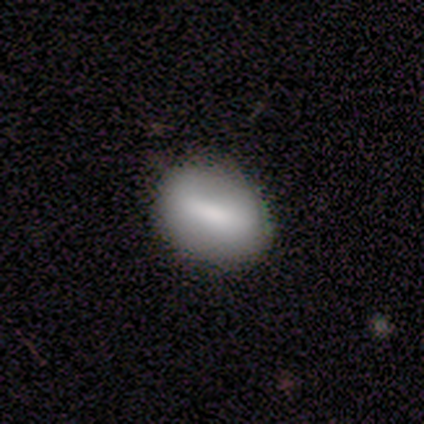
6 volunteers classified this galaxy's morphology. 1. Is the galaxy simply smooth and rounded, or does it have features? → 83% smooth, 17% featured or disk, 0% star or artifact.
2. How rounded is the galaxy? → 60% in between, 40% round, 0% cigar-shaped.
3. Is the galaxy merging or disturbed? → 67% none, 33% minor disturbance, 0% major disturbance, 0% merger.